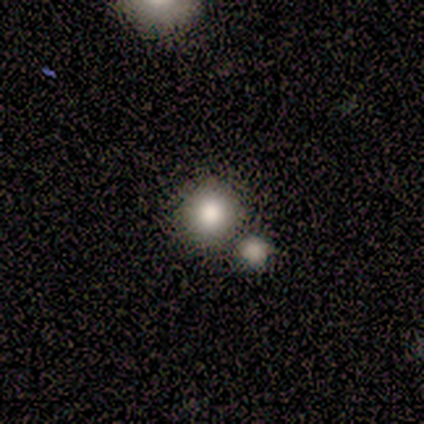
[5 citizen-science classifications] Smooth or featured? 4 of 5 (80%) said smooth. How rounded? 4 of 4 (100%) said round. Merging? 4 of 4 (100%) said none.